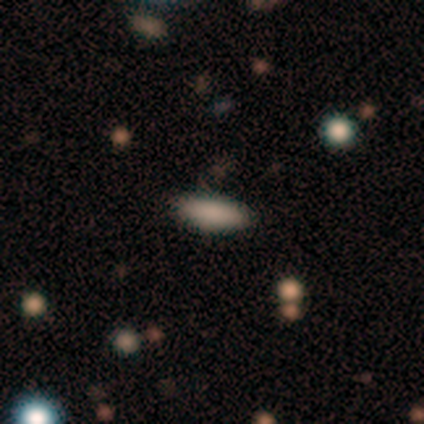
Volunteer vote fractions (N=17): smooth 82%, star or artifact 18%, featured or disk 0%. Down the decision tree: how rounded — in between (64%); merging — none (86%).